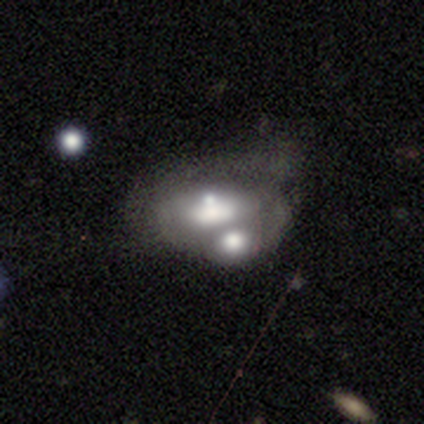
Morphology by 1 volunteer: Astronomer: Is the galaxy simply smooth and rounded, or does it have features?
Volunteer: smooth — 100%.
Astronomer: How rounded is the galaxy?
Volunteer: in between — 100%.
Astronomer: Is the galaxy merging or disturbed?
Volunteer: merger — 100%.